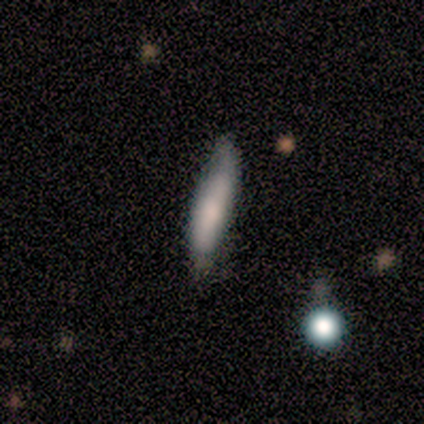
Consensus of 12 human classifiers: Smooth or featured? 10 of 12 (83%) said smooth. How rounded? 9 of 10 (90%) said cigar-shaped. Merging? 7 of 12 (58%) said none.